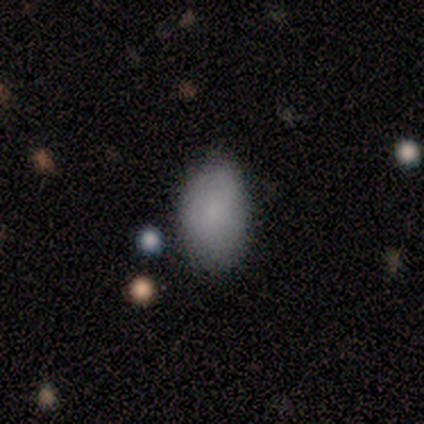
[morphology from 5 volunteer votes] Smooth or featured: smooth — 100%
How rounded: in between — 100%
Merging: none — 80% (minor disturbance — 20%)